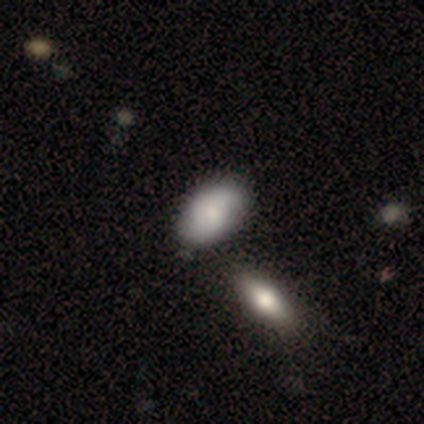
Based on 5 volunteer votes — smooth 80%, featured or disk 20%, star or artifact 0%. Down the decision tree: how rounded — in between (100%); merging — none (60%).